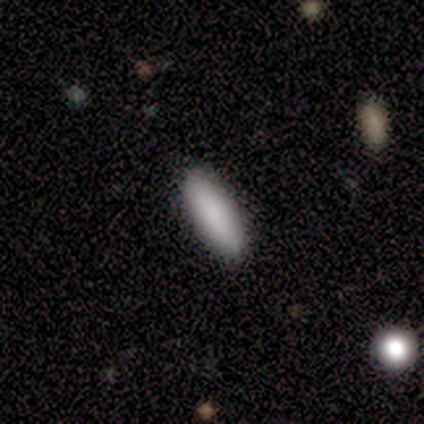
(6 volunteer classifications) smooth 100%, featured or disk 0%, star or artifact 0%. Down the decision tree: how rounded — cigar-shaped (83%); merging — none (83%).